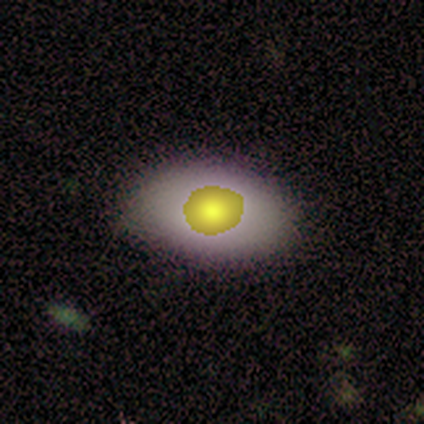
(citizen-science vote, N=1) Smooth or featured? star or artifact (100%)